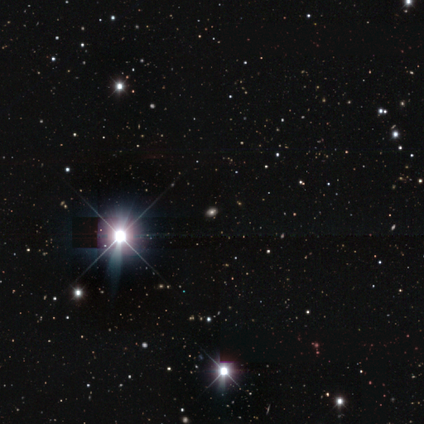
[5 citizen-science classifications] Smooth or featured? star or artifact (80%)